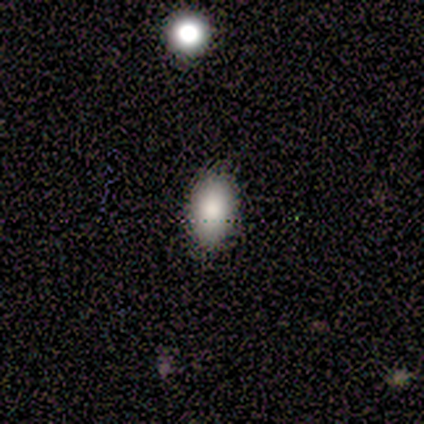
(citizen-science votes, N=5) Smooth or featured? 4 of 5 (80%) said smooth. How rounded? 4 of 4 (100%) said in between. Merging? 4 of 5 (80%) said none.